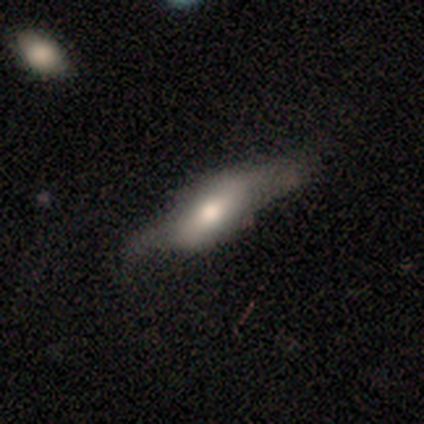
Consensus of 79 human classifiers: Smooth or featured?
  - featured or disk: 54% *
  - smooth: 43%
  - star or artifact: 3%
Edge-on disk?
  - yes: 51% *
  - no: 49%
Edge-on bulge?
  - boxy: 45% * (tied)
  - rounded: 45% * (tied)
  - none: 9%
Merging?
  - none: 29% *
  - major disturbance: 18%
  - minor disturbance: 13%
  - merger: 5%